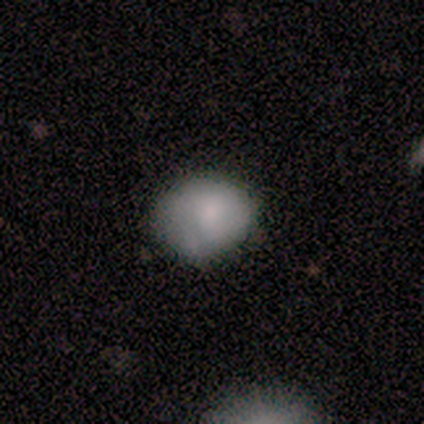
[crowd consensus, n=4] Smooth or featured? 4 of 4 (100%) said smooth. How rounded? 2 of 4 (50%, tied with in between) said round. Merging? 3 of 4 (75%) said none.